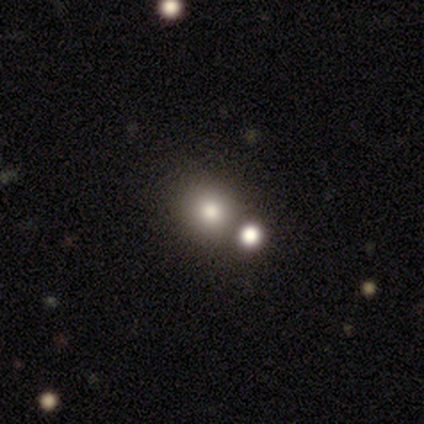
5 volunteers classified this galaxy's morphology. type=smooth (100%); roundness=round (100%); merging=none (100%).